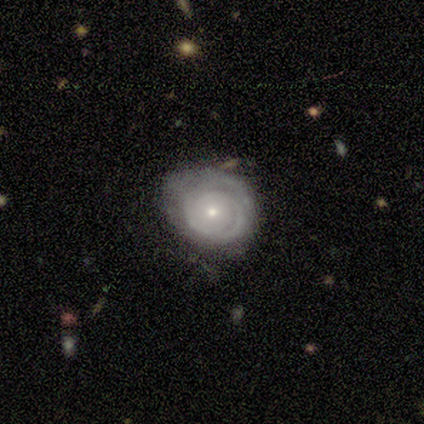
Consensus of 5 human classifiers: A featured or disk galaxy (80%) with no bar (75%), tight (75%) spiral arms (100%) and a small central bulge (100%).

Vote fractions:
- Smooth or featured? featured or disk: 80% / smooth: 20% / star or artifact: 0%
- Edge-on disk? no: 100% / yes: 0%
- Bar? no: 75% / weak: 25% / strong: 0%
- Spiral arms? yes: 100% / no: 0%
- Spiral winding? tight: 75% / medium: 25% / loose: 0%
- Spiral arm count? can't tell: 75% / 2: 25% / 1: 0% / 3: 0% / 4: 0% / more than 4: 0%
- Bulge size? small: 100% / dominant: 0% / large: 0% / moderate: 0% / none: 0%
- Merging? none: 80% / minor disturbance: 20% / major disturbance: 0% / merger: 0%